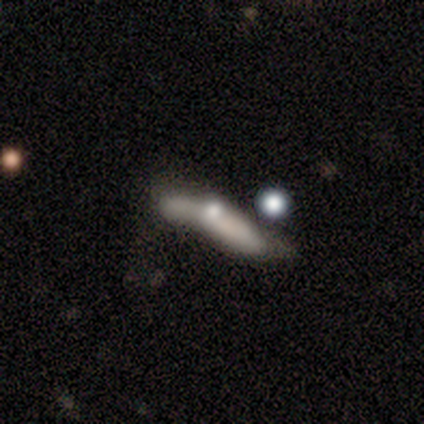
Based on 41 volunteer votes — featured or disk 63%, smooth 32%, star or artifact 5%. Down the decision tree: edge-on disk — no (62%); bar — no (100%); spiral arms — no (88%); bulge size — moderate (44%); merging — minor disturbance (31%).